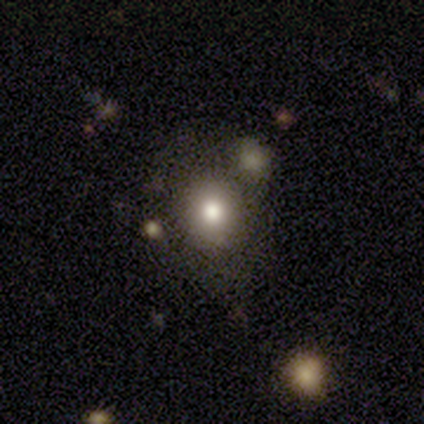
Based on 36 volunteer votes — A smooth galaxy with no disk features (67%) that is round (83%).

Vote fractions:
- Smooth or featured? smooth: 67% / featured or disk: 17% / star or artifact: 17%
- How rounded? round: 83% / in between: 17% / cigar-shaped: 0%
- Merging? none: 77% / minor disturbance: 17% / major disturbance: 3% / merger: 3%